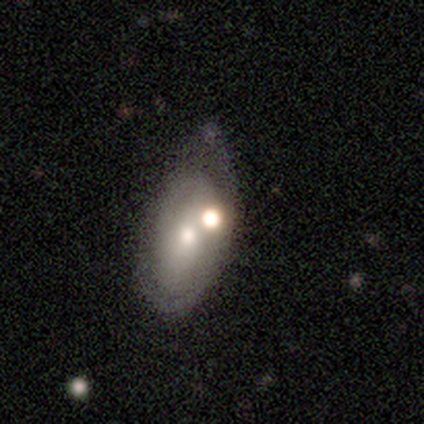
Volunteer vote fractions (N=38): Q: Smooth or featured?
A: featured or disk (53%); runner-up: smooth (37%)
Q: Edge-on disk?
A: no (85%); runner-up: yes (15%)
Q: Bar?
A: no (82%); runner-up: strong (12%)
Q: Spiral arms?
A: no (71%); runner-up: yes (29%)
Q: Bulge size?
A: moderate (59%); runner-up: small (24%)
Q: Merging?
A: minor disturbance (35%); runner-up: major disturbance (26%)